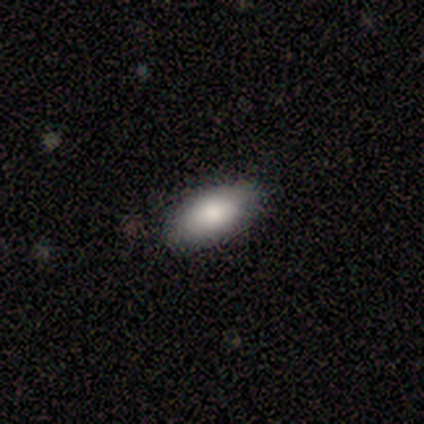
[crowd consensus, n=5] Q: Smooth or featured?
A: smooth (100%)
Q: How rounded?
A: in between (100%)
Q: Merging?
A: none (100%)